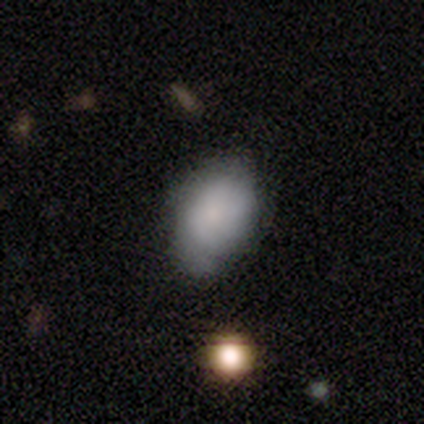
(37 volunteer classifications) Smooth or featured? 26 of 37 (70%) said smooth. How rounded? 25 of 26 (96%) said in between. Merging? 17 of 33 (52%) said none.